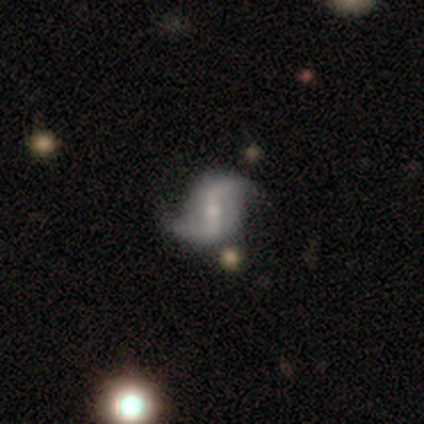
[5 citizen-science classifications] Smooth or featured: featured or disk — 100%
Edge-on disk: no — 100%
Bar: strong — 60% (weak — 20%)
Spiral arms: yes — 100%
Spiral winding: loose — 80% (tight — 20%)
Spiral arm count: 2 — 100%
Bulge size: none — 40% (large — 20%)
Merging: none — 100%